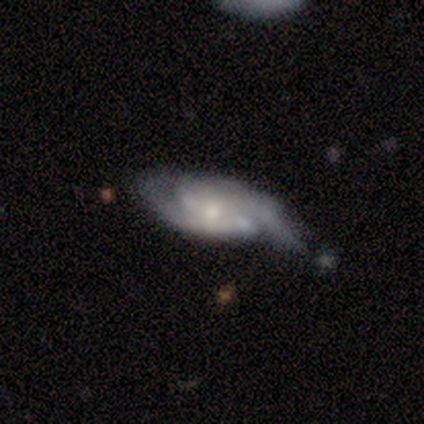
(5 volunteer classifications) smooth_or_featured: featured or disk (p=0.80) [alt: smooth p=0.20]
disk_edge_on: no (p=0.75) [alt: yes p=0.25]
bar: weak (p=0.67) [alt: no p=0.33]
has_spiral_arms: yes (p=1.00)
spiral_winding: medium (p=1.00)
spiral_arm_count: 2 (p=1.00)
bulge_size: small (p=0.67) [alt: moderate p=0.33]
merging: minor disturbance (p=0.60) [alt: none p=0.20]